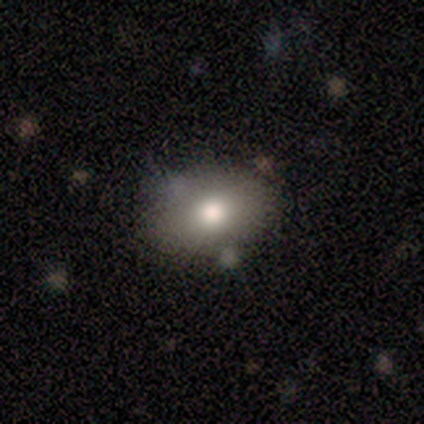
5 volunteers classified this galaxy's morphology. This is clearly a smooth galaxy (100%). How rounded: clearly in between (80%). Merging: clearly none (100%).